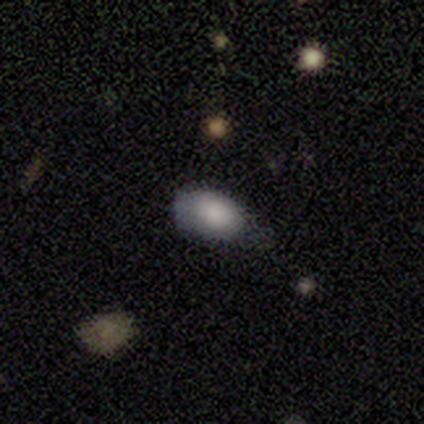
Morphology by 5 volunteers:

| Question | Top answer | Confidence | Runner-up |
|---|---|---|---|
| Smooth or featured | smooth | 80% | star or artifact (20%) |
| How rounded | in between | 100% | — |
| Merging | none | 75% | major disturbance (25%) |